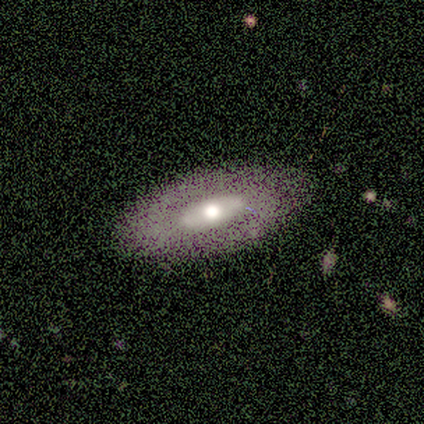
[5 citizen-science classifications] featured or disk 60%, smooth 20%, star or artifact 20%. Down the decision tree: edge-on disk — no (100%); bar — strong (67%); spiral arms — no (100%); bulge size — moderate (67%); merging — none (100%).